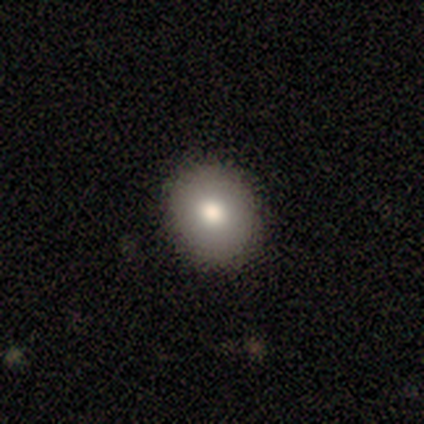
Morphology: type=smooth (80%); roundness=round (75%); merging=none (100%).